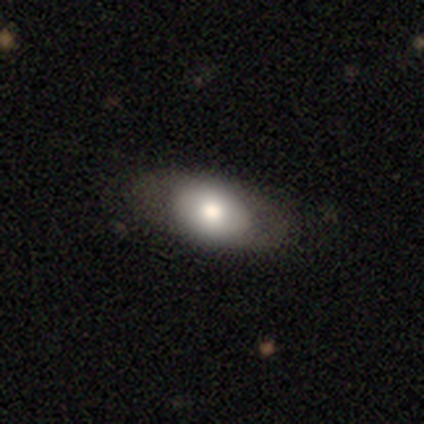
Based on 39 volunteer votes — A smooth galaxy with no disk features (77%) that is in between round and cigar-shaped (97%). Merging: none (78%).